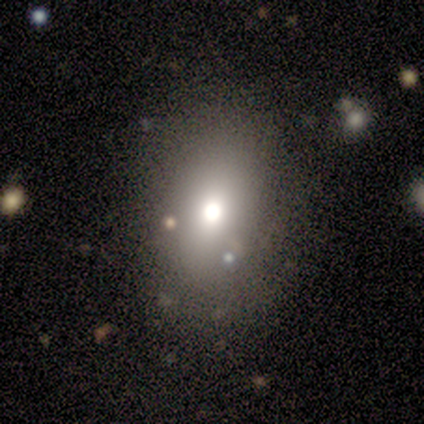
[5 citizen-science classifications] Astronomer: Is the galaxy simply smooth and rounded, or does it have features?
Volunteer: smooth — 60%.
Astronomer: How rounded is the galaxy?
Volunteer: in between — 67%.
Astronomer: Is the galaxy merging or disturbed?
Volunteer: none — 100%.